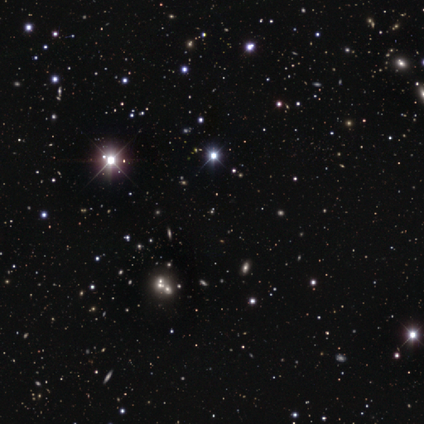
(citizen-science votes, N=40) Overall: star or artifact (95%).